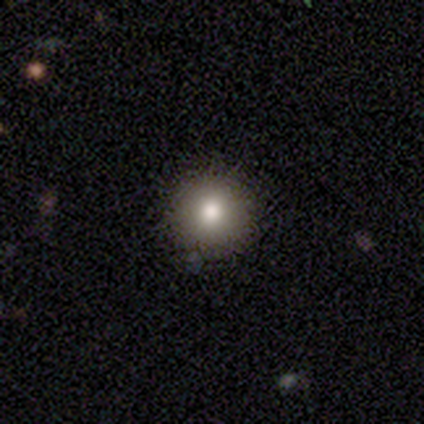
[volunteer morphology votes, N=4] This appears to be a featured or disk galaxy (50%) with no bar (100%), no spiral arms (100%) and a large central bulge (100%). Merging: none (100%).